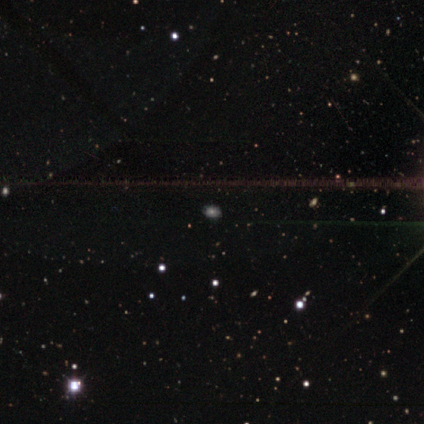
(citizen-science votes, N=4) Smooth or featured?
  - smooth: 100% *
  - featured or disk: 0%
  - star or artifact: 0%
How rounded?
  - round: 50% * (tied)
  - in between: 50% * (tied)
  - cigar-shaped: 0%
Merging?
  - none: 75% *
  - minor disturbance: 25%
  - major disturbance: 0%
  - merger: 0%